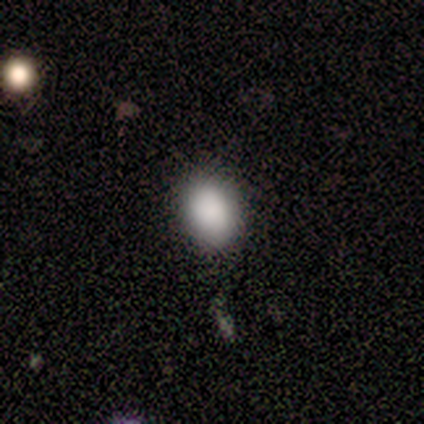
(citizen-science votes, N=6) Morphology: type=smooth (67%); roundness=round (50%, tied with in between); merging=none (75%).